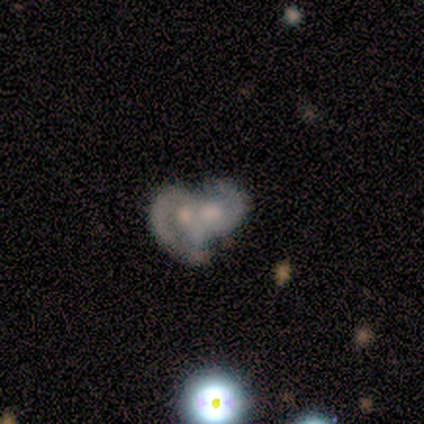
A smooth galaxy with no disk features (50%, tied with featured or disk) that is round (50%, tied with in between).

Vote fractions:
- Smooth or featured? smooth: 50% (tied) / featured or disk: 50% (tied) / star or artifact: 0%
- How rounded? round: 50% (tied) / in between: 50% (tied) / cigar-shaped: 0%
- Merging? merger: 100% / none: 0% / minor disturbance: 0% / major disturbance: 0%